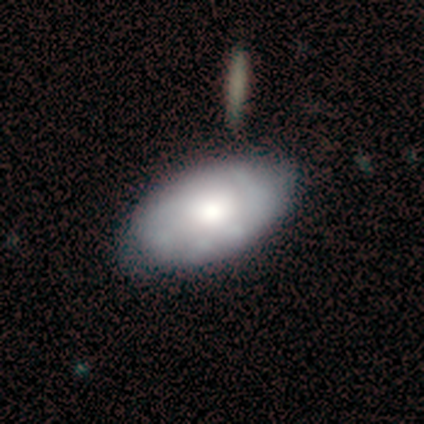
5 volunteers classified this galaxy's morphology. type=featured or disk (60%); edge-on=no (100%); bar=no (100%); spiral arms=no (67%); bulge=large (33%, tied with moderate and small); merging=none (60%).